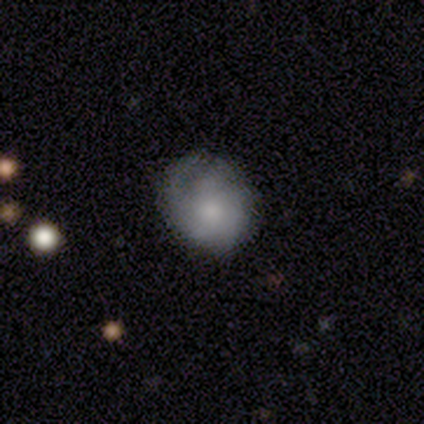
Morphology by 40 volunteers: Smooth or featured: smooth — 57% (featured or disk — 28%)
How rounded: round — 74% (in between — 22%)
Merging: none — 50% (minor disturbance — 29%)